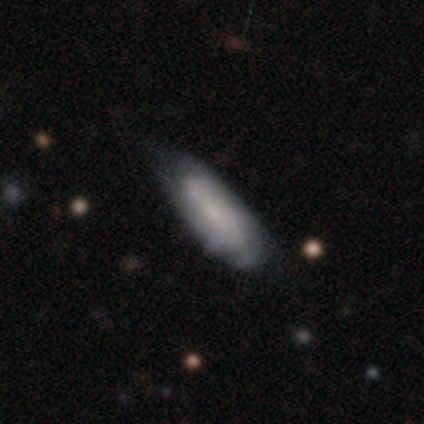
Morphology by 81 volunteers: Volunteers were most divided on "spiral winding" (2-way tie): tight: 40%, medium: 40%, loose: 20%; "spiral arm count" (2-way tie): 2: 46%, can't tell: 46%, 3: 6%, 4: 3%, 1: 0%, more than 4: 0%. Remaining: edge-on disk — no (93%); spiral arms — yes (88%); bulge size — small (65%); smooth or featured — featured or disk (53%); bar — no (48%); merging — none (30%).